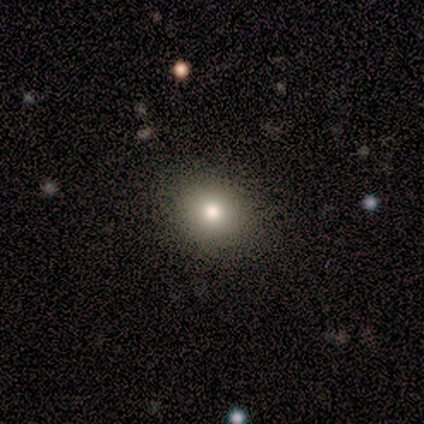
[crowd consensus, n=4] Overall: smooth (50%, tied with star or artifact). How rounded: round (50%, tied with in between). Merging: none (100%).